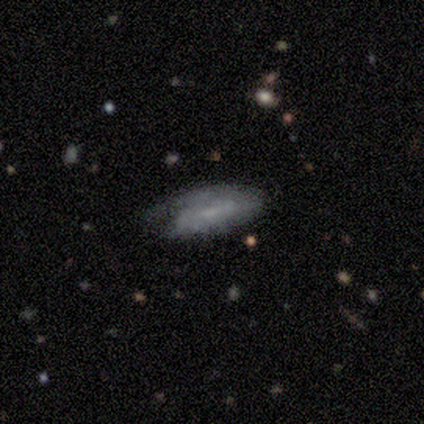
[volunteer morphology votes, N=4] smooth-or-featured: featured or disk: 75% | smooth: 25% | star or artifact: 0%
  disk-edge-on: no: 67% | yes: 33%
    bar: weak: 100% | strong: 0% | no: 0%
    has-spiral-arms: yes: 100% | no: 0%
      spiral-winding: tight: 50% (tied) | loose: 50% (tied) | medium: 0%
      spiral-arm-count: 1: 50% (tied) | can't tell: 50% (tied) | 2: 0% | 3: 0% | 4: 0% | more than 4: 0%
    bulge-size: moderate: 50% (tied) | small: 50% (tied) | dominant: 0% | large: 0% | none: 0%
  merging: none: 50% (tied) | major disturbance: 50% (tied) | minor disturbance: 0% | merger: 0%